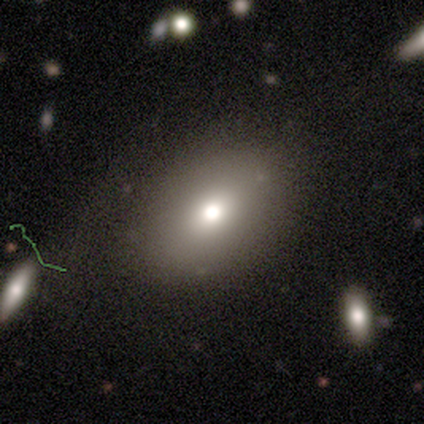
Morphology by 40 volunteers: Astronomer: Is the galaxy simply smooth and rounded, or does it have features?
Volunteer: smooth — 65%.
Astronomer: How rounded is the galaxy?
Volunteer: in between — 73%.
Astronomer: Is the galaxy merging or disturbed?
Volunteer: none — 85%.